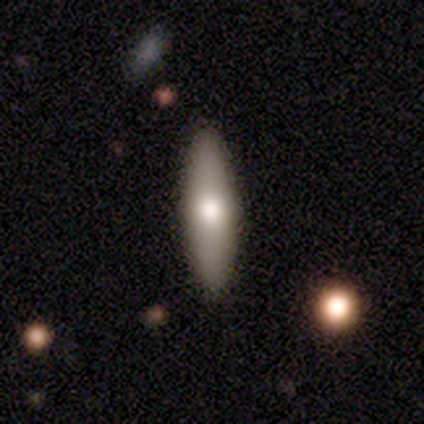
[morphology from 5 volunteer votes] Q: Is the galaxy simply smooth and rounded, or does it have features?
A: smooth — 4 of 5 (80%).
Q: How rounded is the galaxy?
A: in between — 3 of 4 (75%).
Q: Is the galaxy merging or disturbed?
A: none — 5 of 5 (100%).